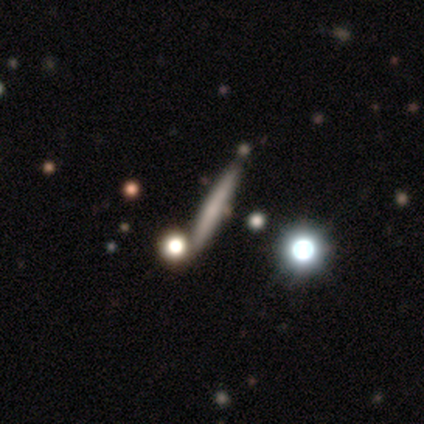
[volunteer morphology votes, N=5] type=featured or disk (60%); edge-on=yes (100%); edge-on bulge=none (100%); merging=none (80%).